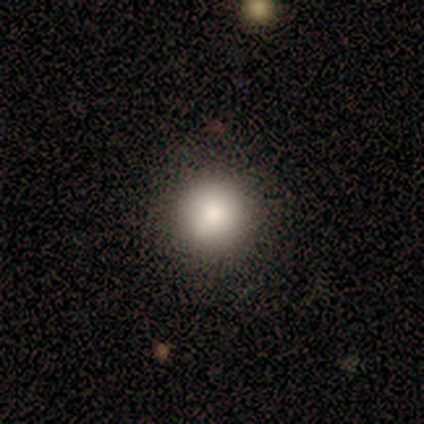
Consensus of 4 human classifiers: A smooth galaxy with no disk features (100%) that is round (100%). Merging: none (100%).